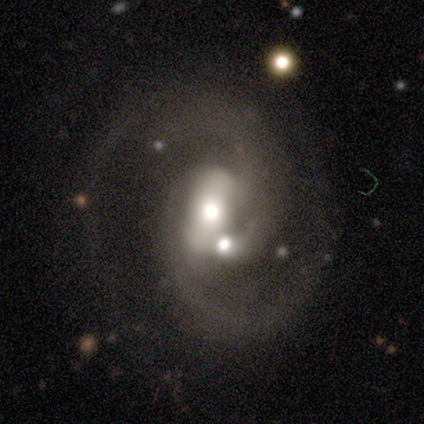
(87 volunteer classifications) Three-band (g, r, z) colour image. It shows a featured or disk galaxy (85%) with a strong bar (41%), 2 (79%) medium (43%) spiral arms (97%) and a moderate central bulge (58%). Merging: merger (38%).